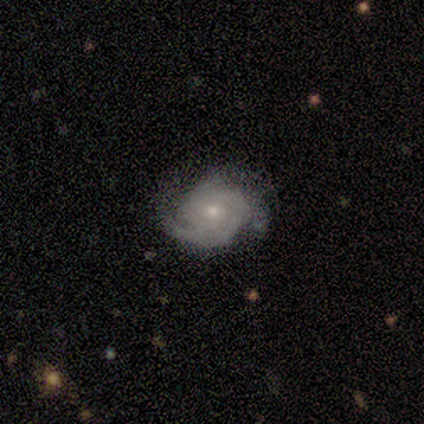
Volunteers were most divided on "spiral arm count": 2: 60%, 1: 20%, 3: 20%, 4: 0%, more than 4: 0%, can't tell: 0%. More confident: smooth or featured — featured or disk (100%); edge-on disk — no (100%); bar — no (100%); spiral arms — yes (100%); spiral winding — tight (80%); bulge size — small (80%); merging — none (80%).